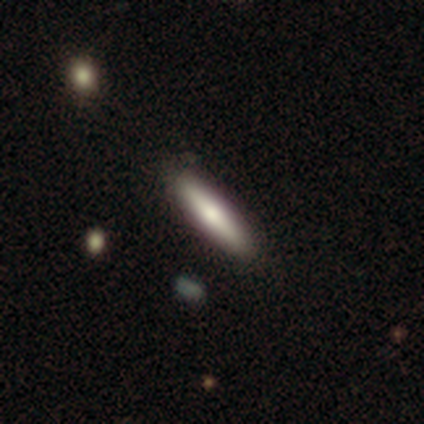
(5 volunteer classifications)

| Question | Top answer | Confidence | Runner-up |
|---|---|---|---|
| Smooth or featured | smooth | 60% | featured or disk (20%) |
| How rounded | cigar-shaped | 100% | — |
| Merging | none | 75% | minor disturbance (25%) |